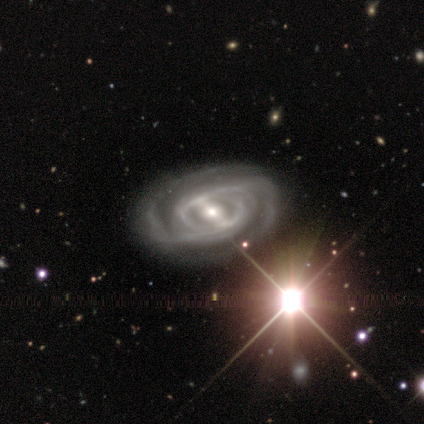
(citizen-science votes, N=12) A featured or disk galaxy (92%) with a strong bar (55%), 2 (64%) medium (64%) spiral arms (100%) and a small central bulge (45%).

Vote fractions:
- Smooth or featured? featured or disk: 92% / star or artifact: 8% / smooth: 0%
- Edge-on disk? no: 100% / yes: 0%
- Bar? strong: 55% / weak: 45% / no: 0%
- Spiral arms? yes: 100% / no: 0%
- Spiral winding? medium: 64% / tight: 27% / loose: 9%
- Spiral arm count? 2: 64% / 3: 18% / 1: 9% / 4: 9% / more than 4: 0% / can't tell: 0%
- Bulge size? small: 45% / moderate: 36% / large: 18% / dominant: 0% / none: 0%
- Merging? none: 82% / minor disturbance: 9% / major disturbance: 9% / merger: 0%